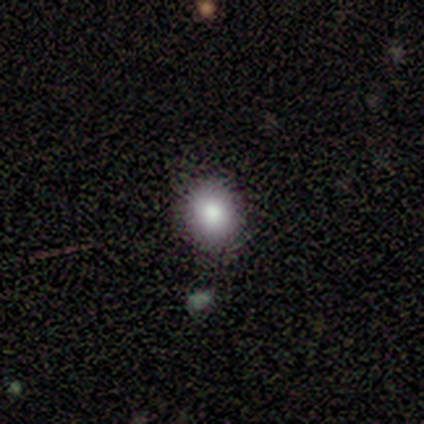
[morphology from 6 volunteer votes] Volunteers were most divided on "how rounded": round: 60%, in between: 40%, cigar-shaped: 0%. More confident: smooth or featured — smooth (83%); merging — none (80%).